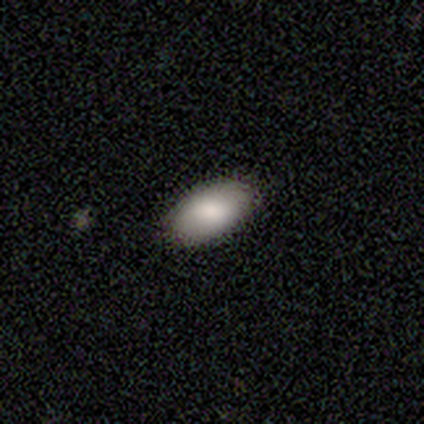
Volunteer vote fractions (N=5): A smooth galaxy with no disk features (100%) that is in between round and cigar-shaped (100%). Merging: none (100%).